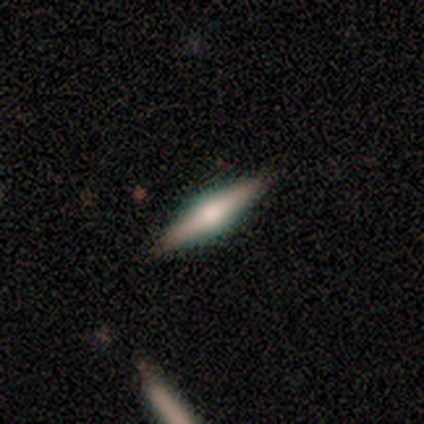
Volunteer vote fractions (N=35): Overall: featured or disk (74%). Edge-on disk: yes (100%). Edge-on bulge: rounded (85%). Merging: none (88%).